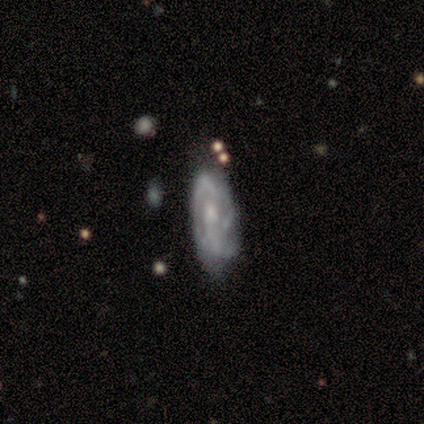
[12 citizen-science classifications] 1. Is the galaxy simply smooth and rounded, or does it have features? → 58% featured or disk, 42% smooth, 0% star or artifact.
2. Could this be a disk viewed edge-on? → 86% no, 14% yes.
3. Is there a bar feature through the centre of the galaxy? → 50% no, 33% weak, 17% strong.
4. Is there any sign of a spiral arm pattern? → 83% yes, 17% no.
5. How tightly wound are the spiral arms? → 40% tight (tied), 40% medium (tied), 20% loose.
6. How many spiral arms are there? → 60% 2, 40% can't tell, 0% 1, 0% 3, 0% 4, 0% more than 4.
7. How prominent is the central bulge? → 50% moderate (tied), 50% small (tied), 0% dominant, 0% large, 0% none.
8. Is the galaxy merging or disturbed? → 50% none (tied), 50% minor disturbance (tied), 0% major disturbance, 0% merger.